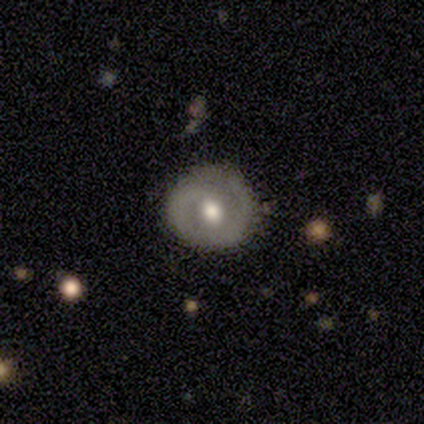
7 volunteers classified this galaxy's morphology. type=featured or disk (71%); edge-on=no (100%); bar=no (80%); spiral arms=yes (80%); winding=tight (50%); arm count=1 (50%, tied with 2); bulge=moderate (100%); merging=none (71%).